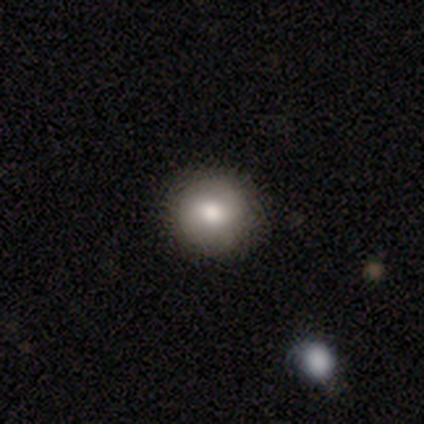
Q: Smooth or featured?
A: smooth (74%); runner-up: star or artifact (16%)
Q: How rounded?
A: round (95%); runner-up: in between (5%)
Q: Merging?
A: none (93%); runner-up: minor disturbance (5%)